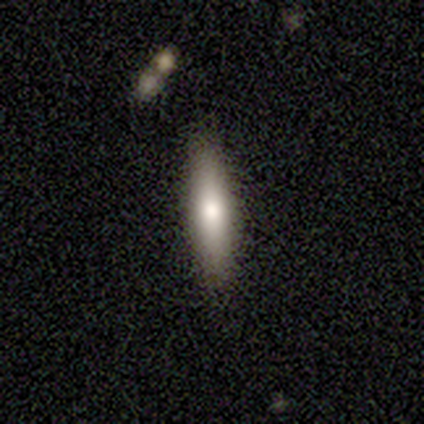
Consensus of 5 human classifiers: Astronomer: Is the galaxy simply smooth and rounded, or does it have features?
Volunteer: smooth — 100%.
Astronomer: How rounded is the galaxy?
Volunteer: cigar-shaped — 100%.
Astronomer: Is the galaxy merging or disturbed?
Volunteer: none — 80%.